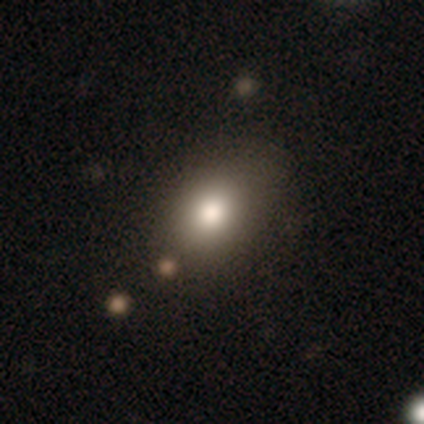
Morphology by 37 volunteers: Overall: smooth (78%). How rounded: in between (52%; round 41%). Merging: none (70%).